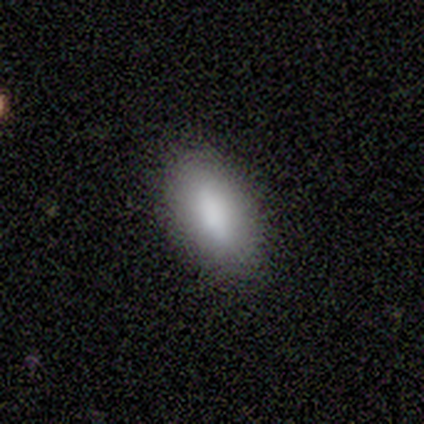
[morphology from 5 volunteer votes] Volunteers were most divided on "how rounded": in between: 80%, round: 20%, cigar-shaped: 0%. More confident: smooth or featured — smooth (100%); merging — none (100%).